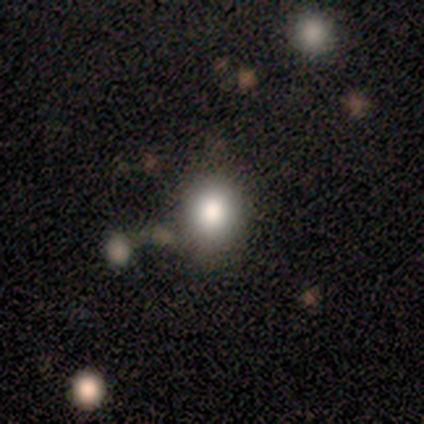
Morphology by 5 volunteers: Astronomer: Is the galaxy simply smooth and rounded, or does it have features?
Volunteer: smooth — 100%.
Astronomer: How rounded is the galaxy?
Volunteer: round — 60% (runner-up: in between, 40%).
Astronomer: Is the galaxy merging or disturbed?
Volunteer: none — 60%.